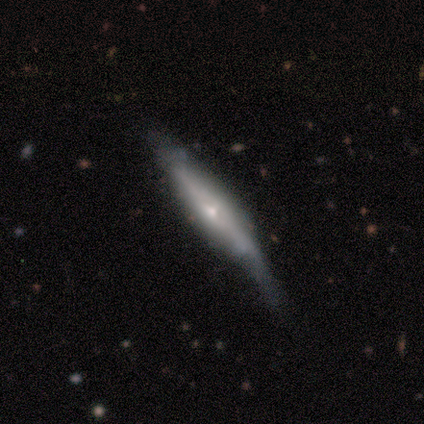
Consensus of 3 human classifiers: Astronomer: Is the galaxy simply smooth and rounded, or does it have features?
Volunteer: smooth — 67%.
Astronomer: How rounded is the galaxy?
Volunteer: in between — 50%, tied with cigar-shaped at 50%.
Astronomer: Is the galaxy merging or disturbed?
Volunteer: minor disturbance — 67%.